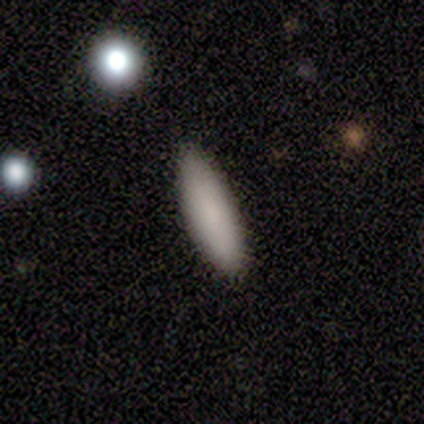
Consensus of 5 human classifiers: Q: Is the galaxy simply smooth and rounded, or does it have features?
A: smooth — 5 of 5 (100%).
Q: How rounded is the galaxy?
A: in between — 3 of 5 (60%).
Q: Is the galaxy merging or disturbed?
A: none — 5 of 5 (100%).